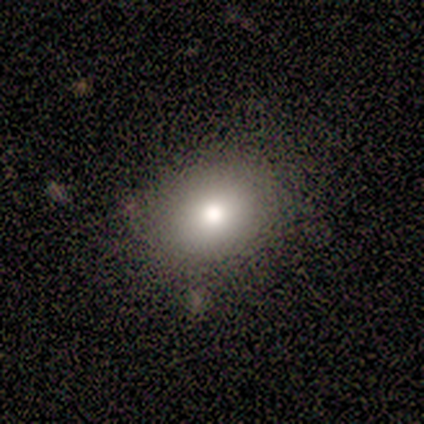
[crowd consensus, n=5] This is clearly a smooth galaxy (100%). How rounded: likely round (60%). Merging: clearly none (100%).